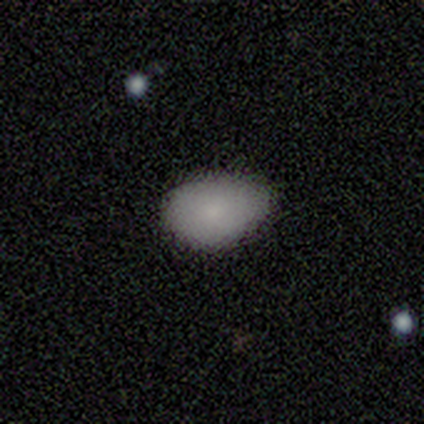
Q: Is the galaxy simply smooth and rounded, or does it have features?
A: smooth — 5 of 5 (100%).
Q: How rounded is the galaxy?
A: in between — 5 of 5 (100%).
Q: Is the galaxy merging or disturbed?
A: none — 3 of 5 (60%).